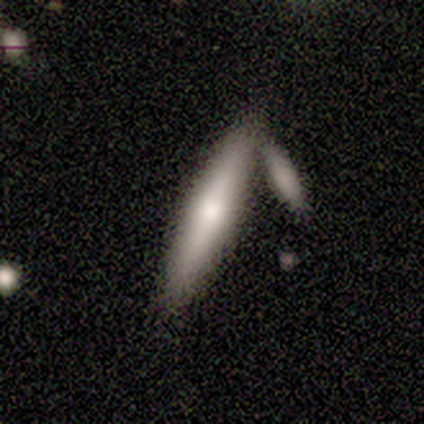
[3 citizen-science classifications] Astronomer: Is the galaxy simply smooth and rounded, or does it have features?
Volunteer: smooth — 67%.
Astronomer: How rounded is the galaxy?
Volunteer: cigar-shaped — 100%.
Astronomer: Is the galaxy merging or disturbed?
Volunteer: merger — 67%.